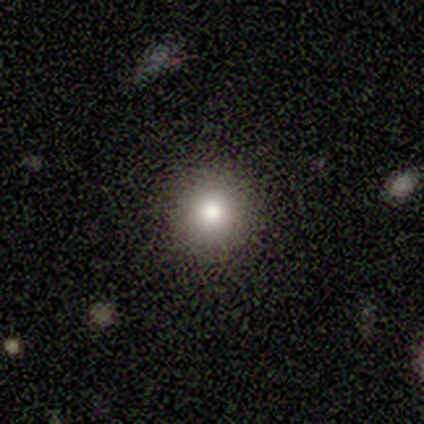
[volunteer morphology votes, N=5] Volunteers were most divided on "smooth or featured": smooth: 80%, star or artifact: 20%, featured or disk: 0%. More confident: how rounded — round (100%); merging — none (100%).